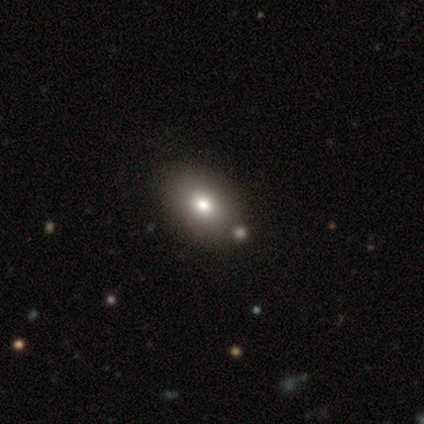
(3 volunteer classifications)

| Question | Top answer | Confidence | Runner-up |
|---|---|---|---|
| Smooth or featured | smooth | 67% | featured or disk (33%) |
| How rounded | in between | 100% | — |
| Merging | none | 67% | minor disturbance (33%) |